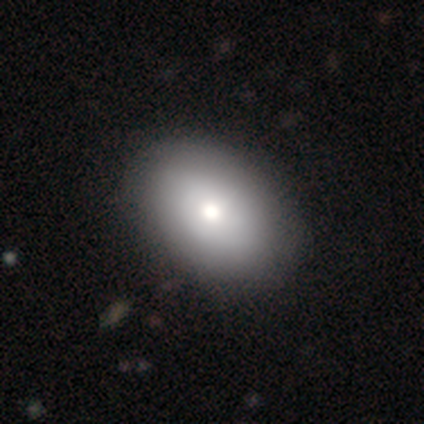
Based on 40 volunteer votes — Smooth or featured? smooth (80%)
How rounded? in between (75%)
Merging? none (63%)